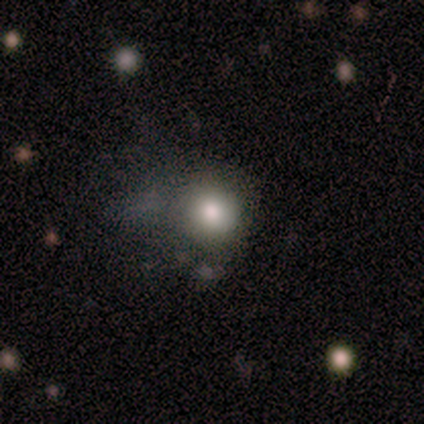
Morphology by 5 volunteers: smooth_or_featured: smooth (p=0.60) [alt: featured or disk p=0.40]
how_rounded: round (p=1.00)
merging: none (p=0.60) [alt: minor disturbance p=0.20]